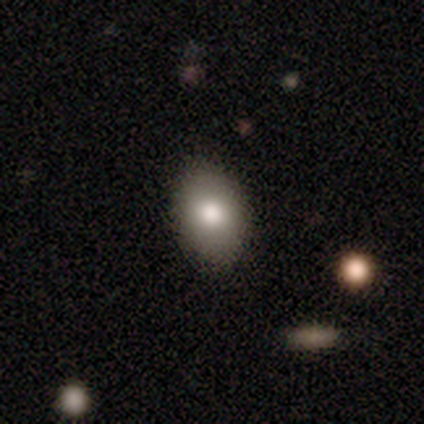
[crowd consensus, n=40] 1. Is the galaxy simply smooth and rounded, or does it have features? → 80% smooth, 15% featured or disk, 5% star or artifact.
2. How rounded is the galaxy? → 91% in between, 9% round, 0% cigar-shaped.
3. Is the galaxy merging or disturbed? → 89% none, 8% minor disturbance, 3% major disturbance, 0% merger.